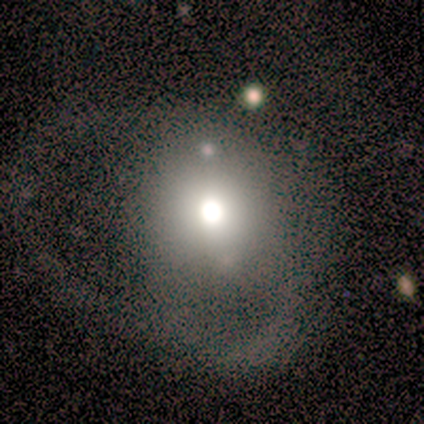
This appears to be a smooth galaxy with no disk features (60%) that is round (100%). Merging: major disturbance (75%).